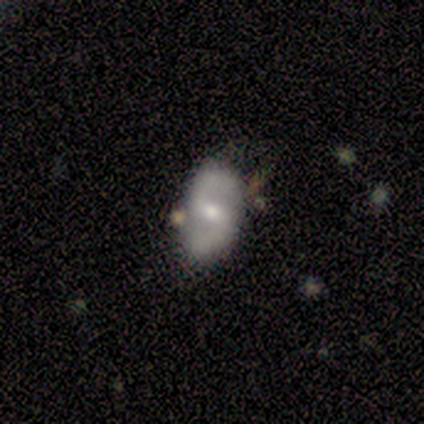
smooth-or-featured: featured or disk: 80% | smooth: 20% | star or artifact: 0%
  disk-edge-on: no: 100% | yes: 0%
    bar: weak: 100% | strong: 0% | no: 0%
    has-spiral-arms: yes: 75% | no: 25%
      spiral-winding: tight: 33% (tied) | medium: 33% (tied) | loose: 33% (tied)
      spiral-arm-count: 2: 100% | 1: 0% | 3: 0% | 4: 0% | more than 4: 0% | can't tell: 0%
    bulge-size: small: 75% | moderate: 25% | dominant: 0% | large: 0% | none: 0%
  merging: none: 80% | minor disturbance: 20% | major disturbance: 0% | merger: 0%